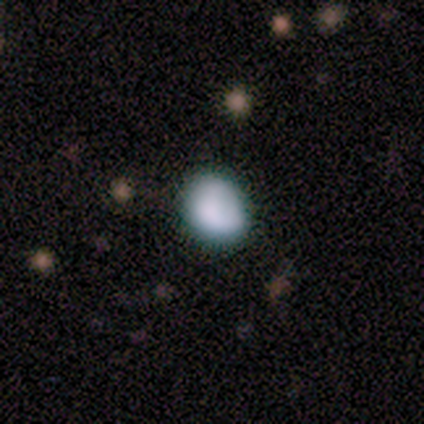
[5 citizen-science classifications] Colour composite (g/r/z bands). It shows a smooth galaxy with no disk features (80%) that is round (50%, tied with in between). Merging: none (60%).